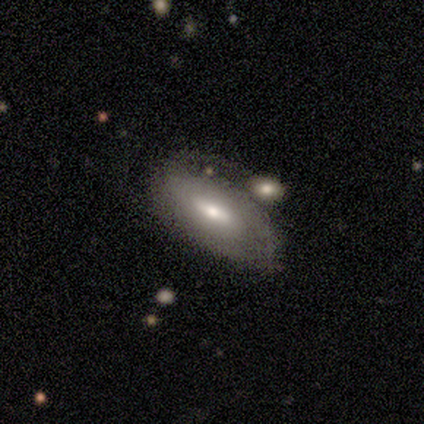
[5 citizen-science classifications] This appears to be a featured or disk galaxy (60%) with a weak bar (50%, tied with no), 1 (50%, tied with can't tell) tight (50%, tied with medium) spiral arms (100%) and a moderate central bulge (50%, tied with small). Merging: major disturbance (60%).